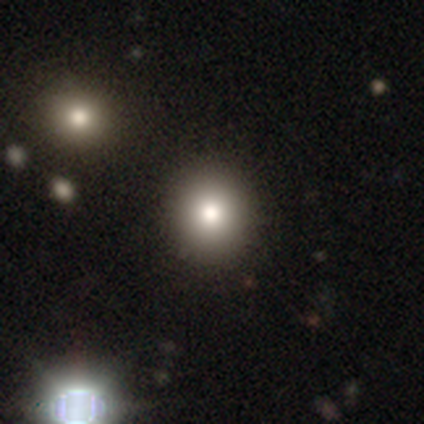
Volunteers were most divided on "merging": none: 58%, minor disturbance: 3%, merger: 3%, major disturbance: 0%. More confident: how rounded — round (83%); smooth or featured — smooth (77%).